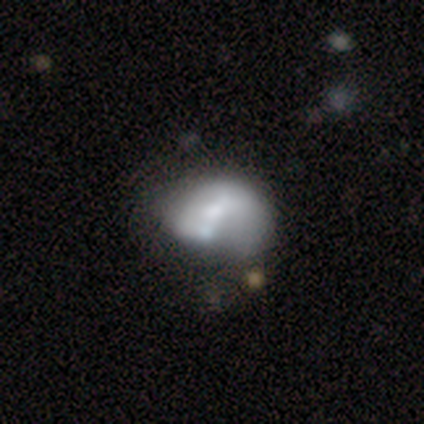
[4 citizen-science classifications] Smooth or featured? featured or disk (75%)
Edge-on disk? no (100%)
Bar? no (100%)
Spiral arms? no (67%)
Bulge size? small (67%)
Merging? merger (50%)